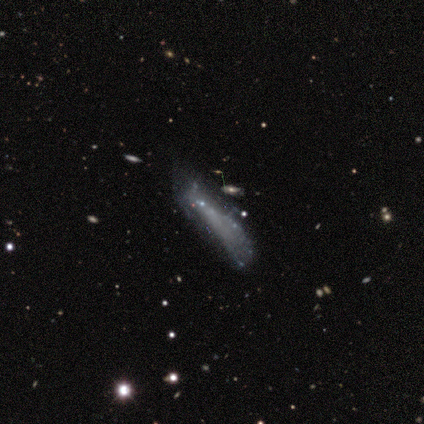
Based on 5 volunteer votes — A smooth galaxy with no disk features (60%) that is cigar-shaped (67%). Merging: major disturbance (80%).